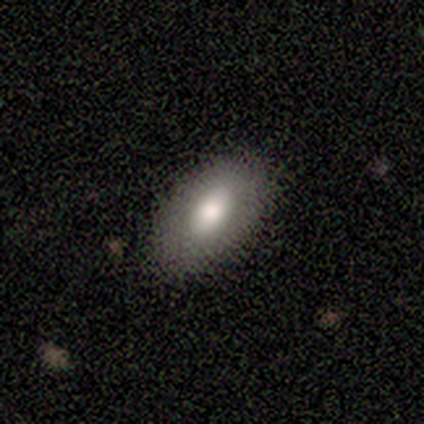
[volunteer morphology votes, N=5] smooth-or-featured: smooth: 60% | featured or disk: 20% | star or artifact: 20%
  how-rounded: in between: 67% | cigar-shaped: 33% | round: 0%
  merging: none: 75% | major disturbance: 25% | minor disturbance: 0% | merger: 0%